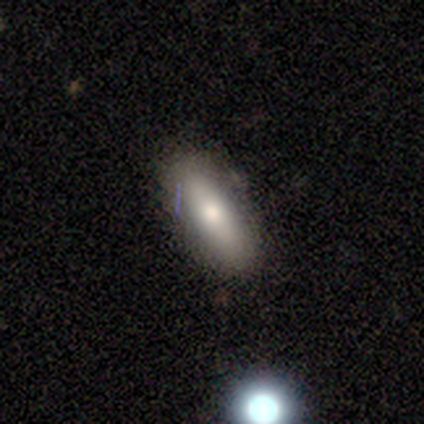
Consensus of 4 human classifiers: Smooth or featured? smooth (75%)
How rounded? cigar-shaped (67%)
Merging? none (100%)